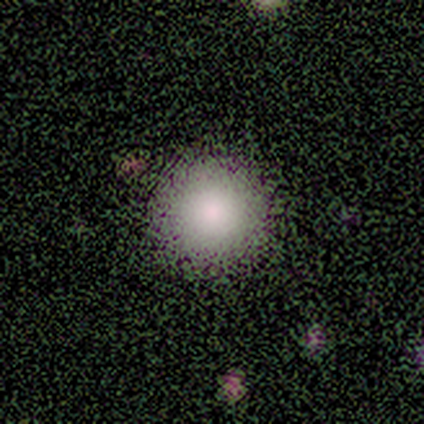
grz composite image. It shows a smooth galaxy with no disk features (71%) that is round (100%). Merging: none (85%).